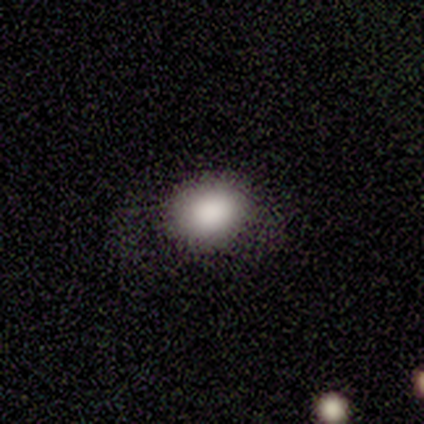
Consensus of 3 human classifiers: smooth-or-featured: smooth: 67% | featured or disk: 33% | star or artifact: 0%
  how-rounded: round: 50% (tied) | in between: 50% (tied) | cigar-shaped: 0%
  merging: none: 67% | minor disturbance: 33% | major disturbance: 0% | merger: 0%